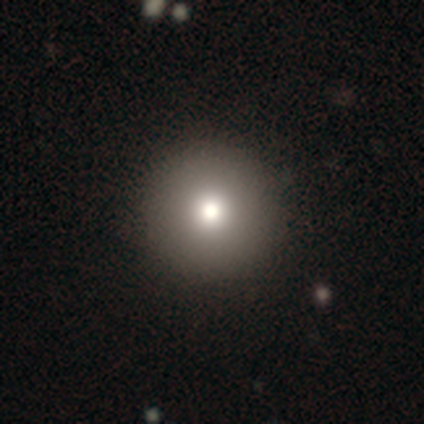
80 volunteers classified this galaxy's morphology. Smooth or featured? smooth (71%)
How rounded? round (98%)
Merging? none (48%)